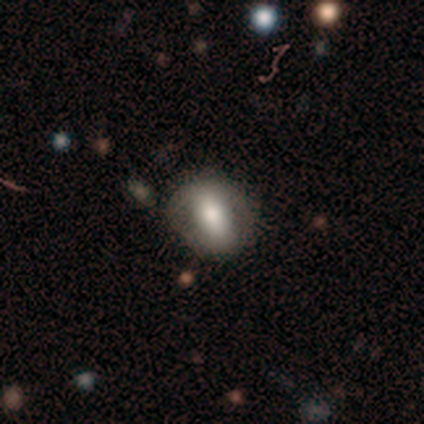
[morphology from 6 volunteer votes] Smooth or featured?
  - smooth: 83% *
  - featured or disk: 17%
  - star or artifact: 0%
How rounded?
  - in between: 40% * (tied)
  - cigar-shaped: 40% * (tied)
  - round: 20%
Merging?
  - none: 67% *
  - minor disturbance: 17%
  - major disturbance: 17%
  - merger: 0%